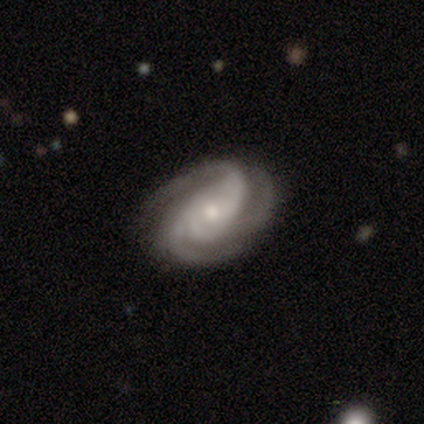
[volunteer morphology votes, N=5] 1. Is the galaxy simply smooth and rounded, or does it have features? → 100% featured or disk, 0% smooth, 0% star or artifact.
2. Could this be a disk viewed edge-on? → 100% no, 0% yes.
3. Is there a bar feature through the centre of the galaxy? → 100% no, 0% strong, 0% weak.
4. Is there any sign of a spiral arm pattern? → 100% yes, 0% no.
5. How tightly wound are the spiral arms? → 100% tight, 0% medium, 0% loose.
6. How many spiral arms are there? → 100% 3, 0% 1, 0% 2, 0% 4, 0% more than 4, 0% can't tell.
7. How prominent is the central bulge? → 100% moderate, 0% dominant, 0% large, 0% small, 0% none.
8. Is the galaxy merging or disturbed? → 100% none, 0% minor disturbance, 0% major disturbance, 0% merger.